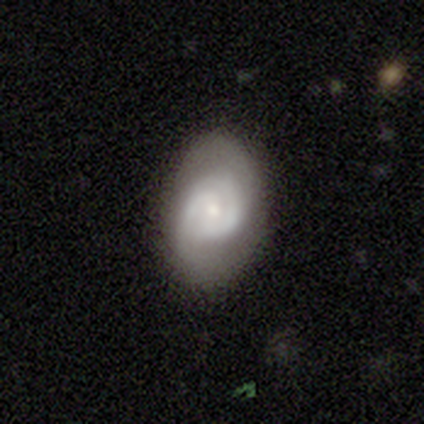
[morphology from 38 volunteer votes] smooth_or_featured: featured or disk (p=0.74) [alt: smooth p=0.24]
disk_edge_on: no (p=0.93) [alt: yes p=0.07]
bar: no (p=0.62) [alt: weak p=0.31]
has_spiral_arms: yes (p=0.77) [alt: no p=0.23]
spiral_winding: tight (p=0.75) [alt: medium p=0.20]
spiral_arm_count: 2 (p=0.70) [alt: can't tell p=0.20]
bulge_size: small (p=0.65) [alt: moderate p=0.31]
merging: none (p=0.81) [alt: minor disturbance p=0.14]